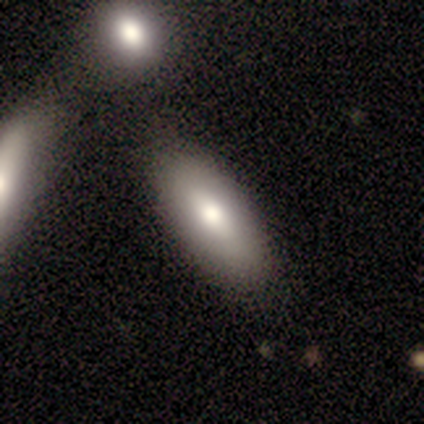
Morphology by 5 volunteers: Smooth or featured? smooth (100%)
How rounded? in between (80%)
Merging? none (80%)